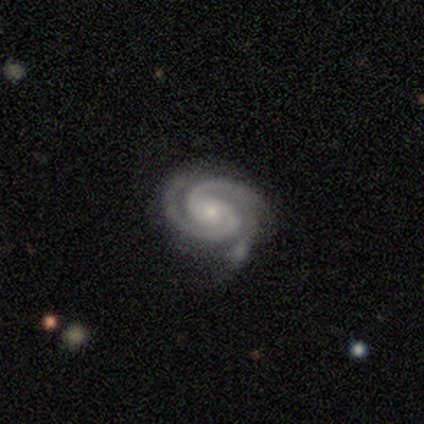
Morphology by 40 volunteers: Q: Smooth or featured?
A: featured or disk (92%); runner-up: smooth (8%)
Q: Edge-on disk?
A: no (97%); runner-up: yes (3%)
Q: Bar?
A: no (81%); runner-up: weak (19%)
Q: Spiral arms?
A: yes (100%)
Q: Spiral winding?
A: tight (81%); runner-up: medium (17%)
Q: Spiral arm count?
A: 2 (81%); runner-up: 3 (17%)
Q: Bulge size?
A: small (50%); runner-up: moderate (44%)
Q: Merging?
A: none (55%); runner-up: minor disturbance (22%)